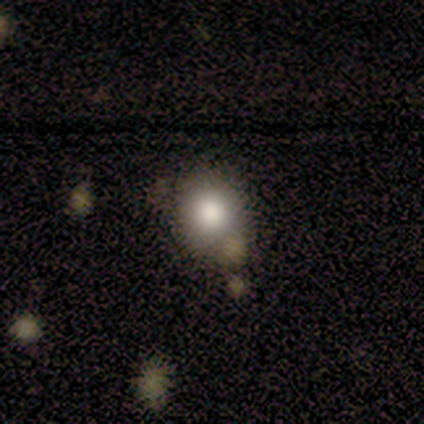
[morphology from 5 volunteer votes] smooth-or-featured: smooth: 60% | featured or disk: 20% | star or artifact: 20%
  how-rounded: round: 100% | in between: 0% | cigar-shaped: 0%
  merging: none: 75% | minor disturbance: 25% | major disturbance: 0% | merger: 0%